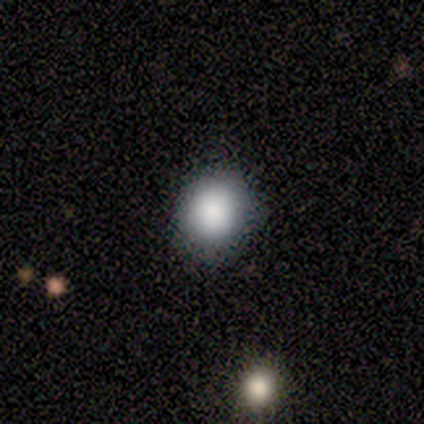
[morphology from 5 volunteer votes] This is clearly a smooth galaxy (80%). How rounded: clearly round (100%). Merging: clearly none (100%).